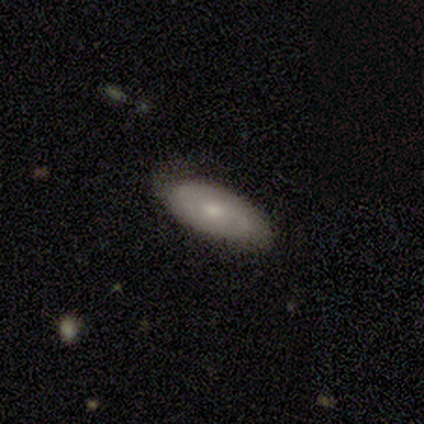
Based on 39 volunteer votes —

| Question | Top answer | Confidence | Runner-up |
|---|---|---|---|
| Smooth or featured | smooth | 54% | featured or disk (44%) |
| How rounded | in between | 76% | cigar-shaped (24%) |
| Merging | none | 76% | minor disturbance (21%) |